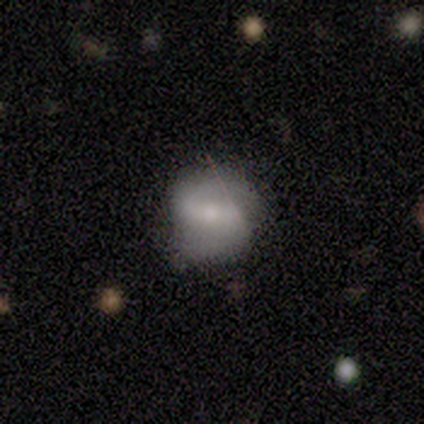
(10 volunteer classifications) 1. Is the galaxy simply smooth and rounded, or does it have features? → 70% featured or disk, 20% smooth, 10% star or artifact.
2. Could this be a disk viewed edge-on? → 100% no, 0% yes.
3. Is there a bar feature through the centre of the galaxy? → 57% weak, 29% strong, 14% no.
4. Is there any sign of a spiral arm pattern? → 100% yes, 0% no.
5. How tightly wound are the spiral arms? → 71% medium, 29% loose, 0% tight.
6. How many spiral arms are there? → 100% 2, 0% 1, 0% 3, 0% 4, 0% more than 4, 0% can't tell.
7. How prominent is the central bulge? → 57% small, 29% moderate, 14% none, 0% dominant, 0% large.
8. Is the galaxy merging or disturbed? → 78% none, 11% minor disturbance, 11% merger, 0% major disturbance.